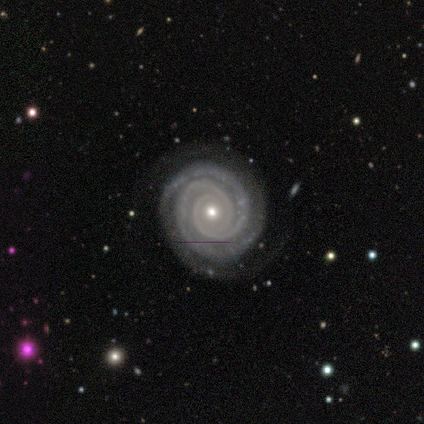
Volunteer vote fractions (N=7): Smooth or featured? 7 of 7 (100%) said featured or disk. Edge-on disk? 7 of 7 (100%) said no. Bar? 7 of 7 (100%) said no. Spiral arms? 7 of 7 (100%) said yes. Spiral winding? 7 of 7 (100%) said tight. Spiral arm count? 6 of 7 (86%) said 2. Bulge size? 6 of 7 (86%) said small. Merging? 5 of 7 (71%) said none.